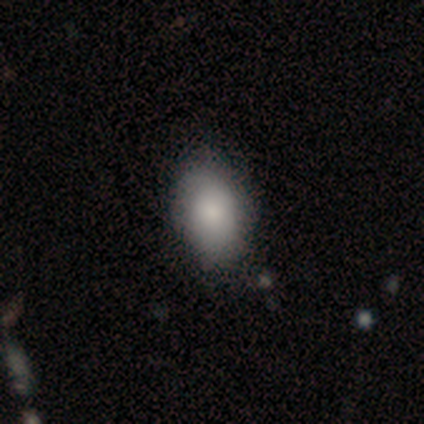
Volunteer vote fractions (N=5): Morphology: type=smooth (100%); roundness=in between (100%); merging=none (100%).